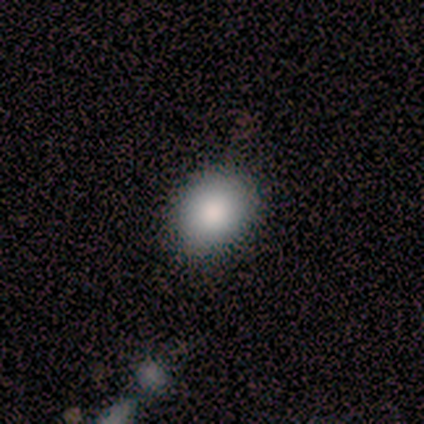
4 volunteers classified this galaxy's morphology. Q: Smooth or featured?
A: smooth (75%); runner-up: star or artifact (25%)
Q: How rounded?
A: round (100%)
Q: Merging?
A: none (33%); tied with: minor disturbance (33%); merger (33%)